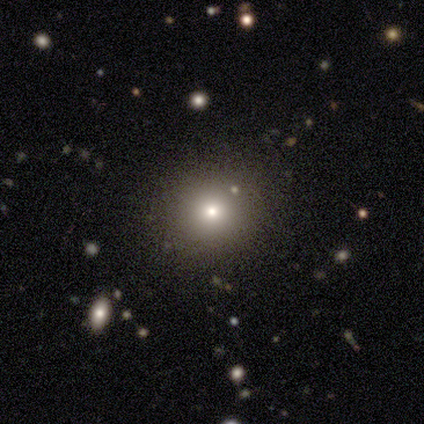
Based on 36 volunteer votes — Q: Smooth or featured?
A: smooth (56%); runner-up: star or artifact (39%)
Q: How rounded?
A: round (85%); runner-up: in between (10%)
Q: Merging?
A: none (82%); runner-up: minor disturbance (14%)